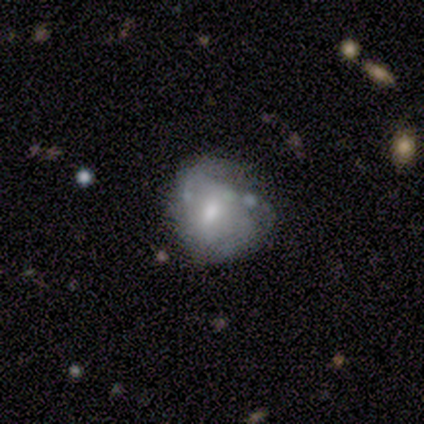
Volunteers were most divided on "smooth or featured": star or artifact: 60%, smooth: 20%, featured or disk: 20%.